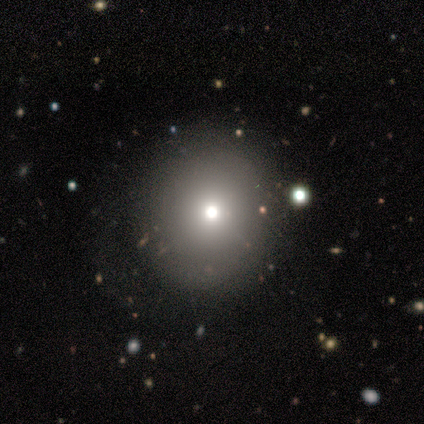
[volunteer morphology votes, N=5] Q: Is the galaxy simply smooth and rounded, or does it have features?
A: smooth — 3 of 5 (60%).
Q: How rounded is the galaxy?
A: round — 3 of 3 (100%).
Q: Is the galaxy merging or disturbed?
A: none — 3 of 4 (75%).